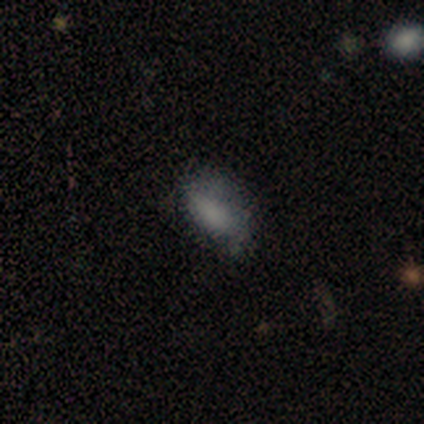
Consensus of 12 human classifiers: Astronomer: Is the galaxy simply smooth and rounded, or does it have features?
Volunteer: smooth — 83%.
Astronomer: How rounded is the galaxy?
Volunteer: in between — 90%.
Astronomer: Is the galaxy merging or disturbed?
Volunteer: none — 83%.